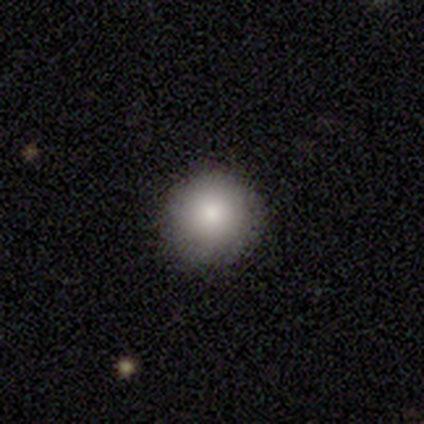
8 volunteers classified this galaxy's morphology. Smooth or featured: smooth — 88% (star or artifact — 12%)
How rounded: round — 100%
Merging: none — 100%